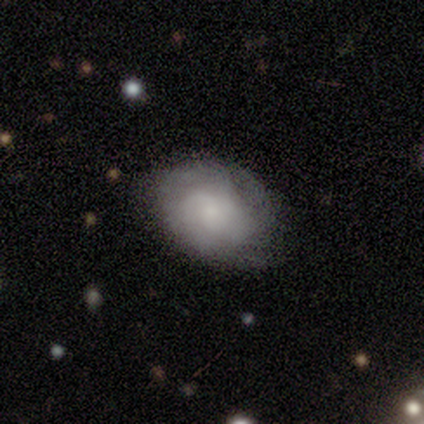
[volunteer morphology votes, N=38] Volunteers were most divided on "spiral winding": medium: 50%, tight: 35%, loose: 15%. More confident: edge-on disk — no (100%); spiral arms — yes (83%); bar — no (71%); bulge size — small (71%); merging — none (68%); spiral arm count — can't tell (65%); smooth or featured — featured or disk (63%).